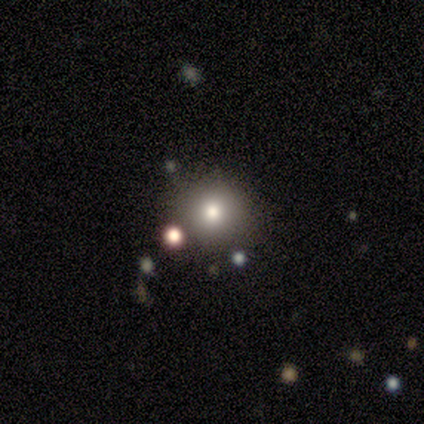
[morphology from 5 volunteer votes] Volunteers were most divided on "smooth or featured": smooth: 80%, star or artifact: 20%, featured or disk: 0%. More confident: how rounded — round (100%); merging — none (100%).